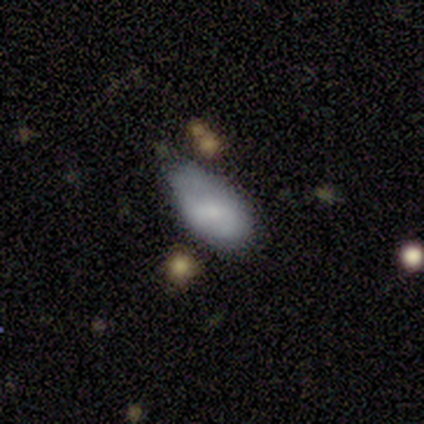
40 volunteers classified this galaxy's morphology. This appears to be a smooth galaxy with no disk features (60%) that is in between round and cigar-shaped (83%). Merging: minor disturbance (50%).